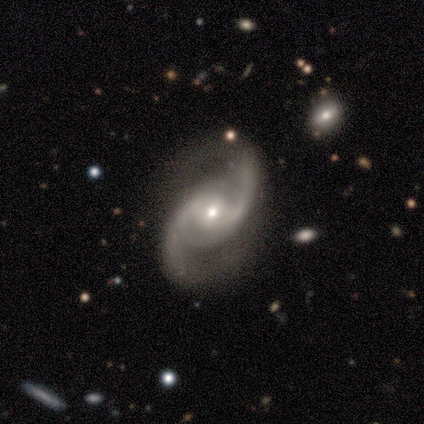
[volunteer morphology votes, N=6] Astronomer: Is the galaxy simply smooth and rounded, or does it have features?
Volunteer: featured or disk — 100%.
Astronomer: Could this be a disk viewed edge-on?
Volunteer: no — 83%.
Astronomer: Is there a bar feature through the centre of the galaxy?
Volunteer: no — 60% (runner-up: weak, 40%).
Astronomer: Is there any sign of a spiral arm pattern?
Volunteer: yes — 100%.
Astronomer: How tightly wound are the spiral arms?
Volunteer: loose — 60% (runner-up: medium, 40%).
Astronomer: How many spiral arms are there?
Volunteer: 2 — 100%.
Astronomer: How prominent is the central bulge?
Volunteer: moderate — 60%.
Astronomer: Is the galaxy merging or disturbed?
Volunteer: none — 100%.